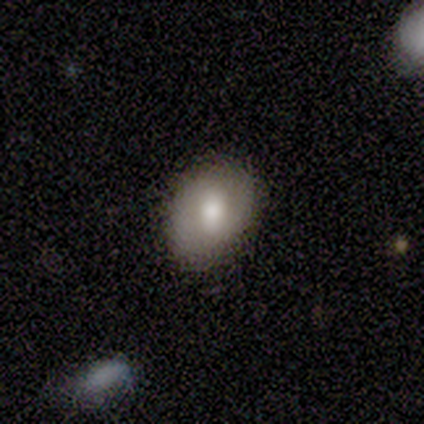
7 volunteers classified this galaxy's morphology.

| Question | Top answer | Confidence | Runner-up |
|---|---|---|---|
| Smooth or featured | smooth | 86% | featured or disk (14%) |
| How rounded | in between | 67% | round (33%) |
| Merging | none | 86% | minor disturbance (14%) |